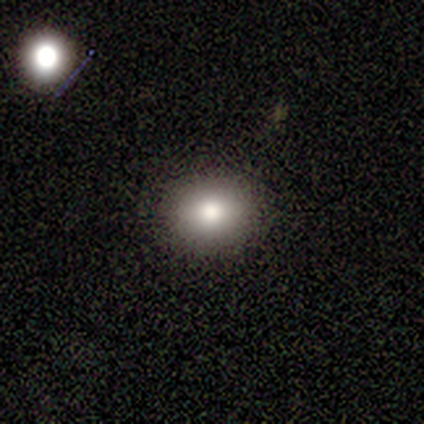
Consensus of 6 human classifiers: Overall: smooth (67%; star or artifact 33%). How rounded: round (75%). Merging: none (100%).